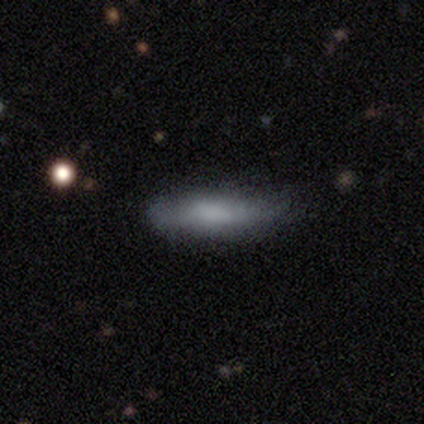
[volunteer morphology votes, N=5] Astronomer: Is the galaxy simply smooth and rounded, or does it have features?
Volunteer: smooth — 40%, tied with featured or disk at 40%.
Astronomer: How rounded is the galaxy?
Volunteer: in between — 100%.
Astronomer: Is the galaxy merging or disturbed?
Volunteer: none — 50%, tied with minor disturbance at 50%.